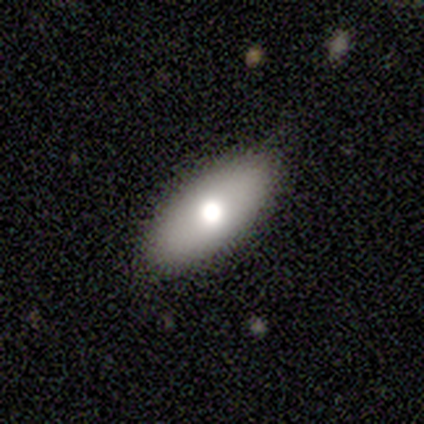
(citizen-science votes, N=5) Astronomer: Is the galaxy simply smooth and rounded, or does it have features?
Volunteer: smooth — 80%.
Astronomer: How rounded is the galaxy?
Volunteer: in between — 75%.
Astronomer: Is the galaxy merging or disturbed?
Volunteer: none — 75%.